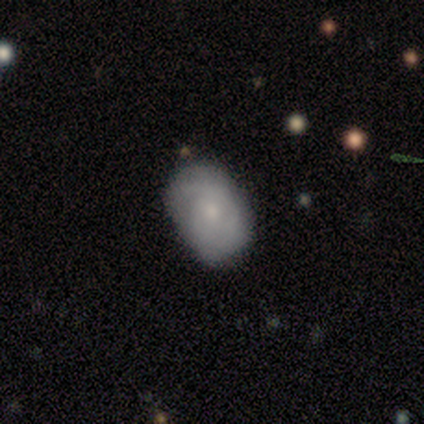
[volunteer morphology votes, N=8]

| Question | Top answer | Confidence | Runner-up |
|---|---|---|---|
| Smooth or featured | featured or disk | 50% | smooth (38%) |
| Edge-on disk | no | 100% | — |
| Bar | no | 75% | weak (25%) |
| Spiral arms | yes | 75% | no (25%) |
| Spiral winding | medium | 67% | tight (33%) |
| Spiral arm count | can't tell | 67% | 2 (33%) |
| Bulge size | moderate | 50% | tied: small (50%) |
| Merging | minor disturbance | 57% | none (43%) |